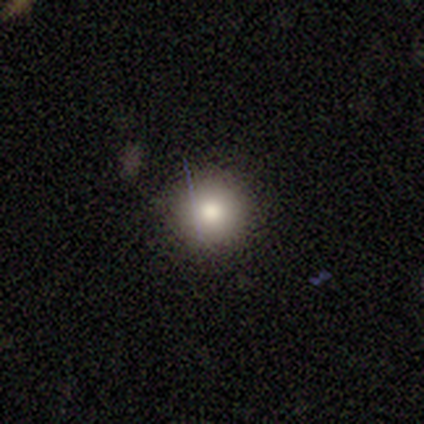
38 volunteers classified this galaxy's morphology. Q: Smooth or featured?
A: smooth (66%); runner-up: star or artifact (18%)
Q: How rounded?
A: round (100%)
Q: Merging?
A: none (87%); runner-up: minor disturbance (13%)